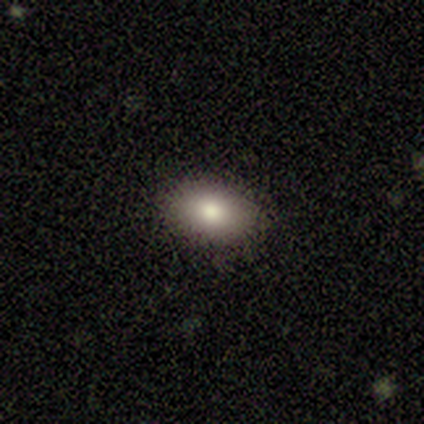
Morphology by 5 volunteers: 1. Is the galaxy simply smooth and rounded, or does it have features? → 100% smooth, 0% featured or disk, 0% star or artifact.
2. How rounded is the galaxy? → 100% in between, 0% round, 0% cigar-shaped.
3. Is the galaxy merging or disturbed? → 100% none, 0% minor disturbance, 0% major disturbance, 0% merger.